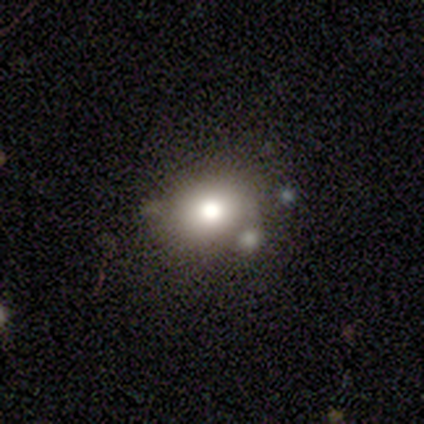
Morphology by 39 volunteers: Volunteers were most divided on "how rounded": round: 57%, in between: 43%, cigar-shaped: 0%. More confident: smooth or featured — smooth (77%); merging — none (61%).